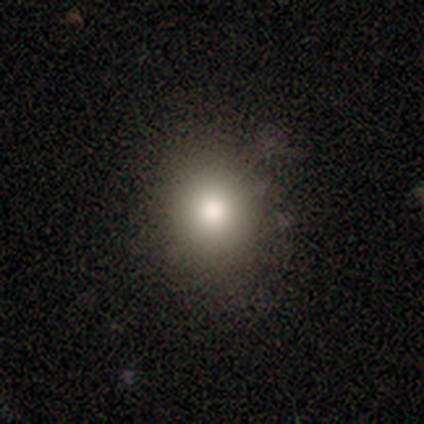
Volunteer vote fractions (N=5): smooth_or_featured: smooth (p=0.80) [alt: featured or disk p=0.20]
how_rounded: round (p=0.75) [alt: in between p=0.25]
merging: none (p=1.00)